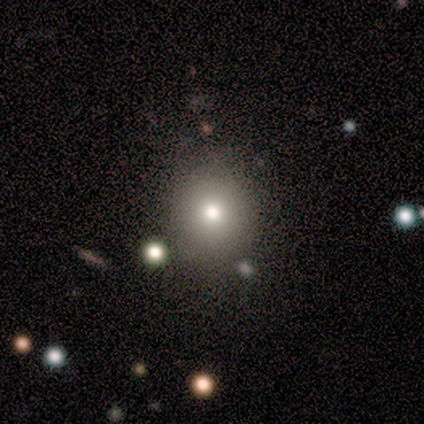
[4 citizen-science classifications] This is possibly a featured or disk galaxy (50%). It is clearly not viewed edge-on (100%). Bar: clearly no (100%). Spiral arm pattern: clearly no (100%). Central bulge: clearly moderate (100%). Merging: clearly none (100%).